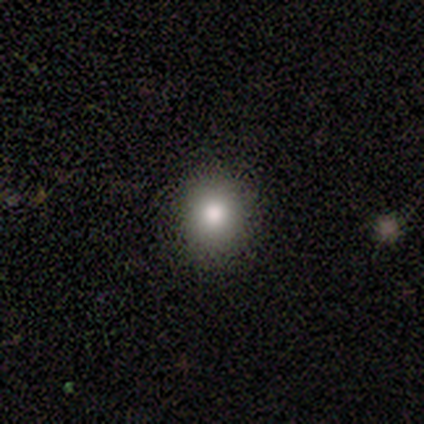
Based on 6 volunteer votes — Smooth or featured? smooth (67%)
How rounded? round (75%)
Merging? none (100%)